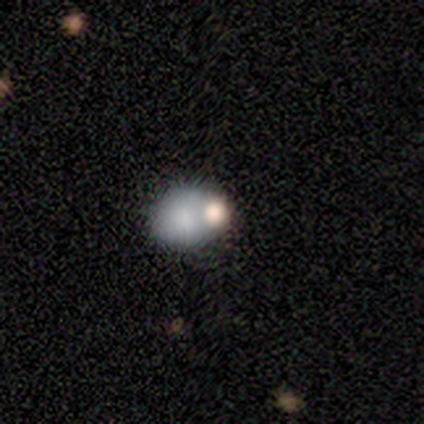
Smooth or featured: smooth — 60% (star or artifact — 40%)
How rounded: round — 100%
Merging: none — 67% (merger — 33%)